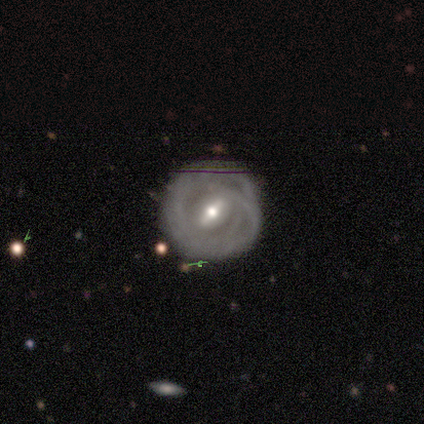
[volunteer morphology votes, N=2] type=featured or disk (100%); edge-on=no (100%); bar=weak (100%); spiral arms=yes (50%, tied with no); winding=tight (100%); arm count=2 (100%); bulge=moderate (100%); merging=minor disturbance (100%).